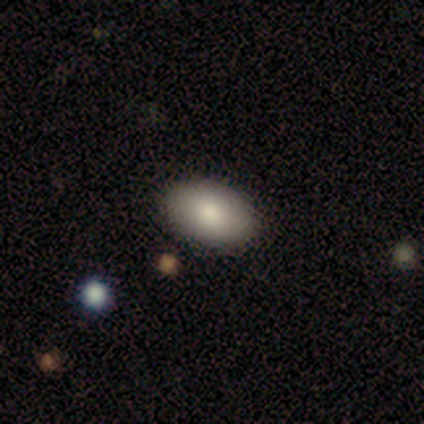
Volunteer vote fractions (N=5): Morphology: type=smooth (100%); roundness=in between (100%); merging=none (100%).